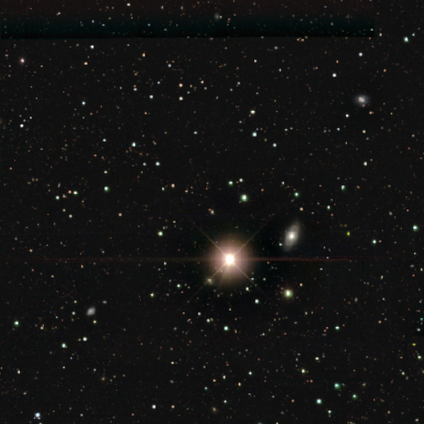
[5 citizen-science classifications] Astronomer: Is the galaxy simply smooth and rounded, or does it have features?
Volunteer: star or artifact — 100%.